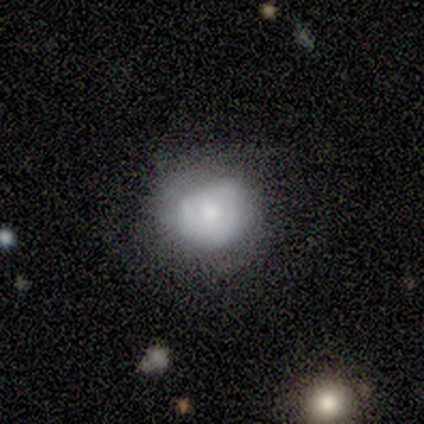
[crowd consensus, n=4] This is possibly a smooth galaxy (50%, tied with featured or disk). How rounded: possibly round (50%, tied with in between). Merging: possibly minor disturbance (50%, tied with major disturbance).